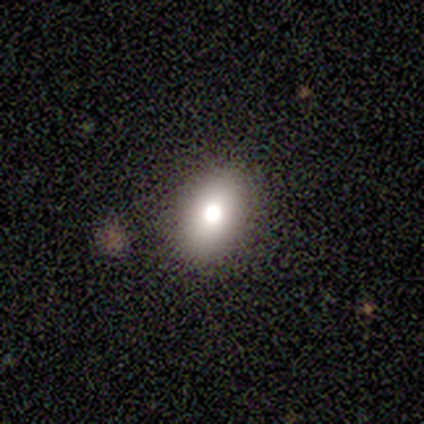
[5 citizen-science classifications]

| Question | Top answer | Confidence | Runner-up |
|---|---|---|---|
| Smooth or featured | smooth | 60% | featured or disk (40%) |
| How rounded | in between | 100% | — |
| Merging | none | 60% | minor disturbance (40%) |